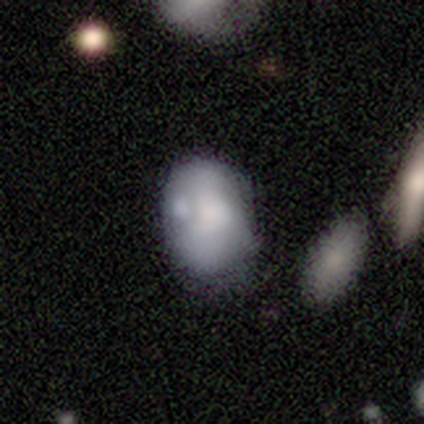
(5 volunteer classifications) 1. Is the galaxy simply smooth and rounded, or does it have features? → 60% smooth, 40% featured or disk, 0% star or artifact.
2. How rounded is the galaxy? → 67% in between, 33% round, 0% cigar-shaped.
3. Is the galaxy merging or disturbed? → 40% none, 20% minor disturbance, 20% major disturbance, 20% merger.